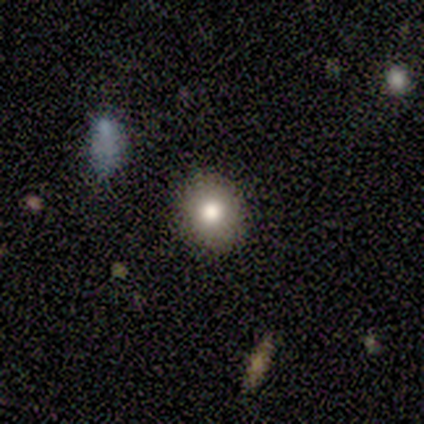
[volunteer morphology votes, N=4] A smooth galaxy with no disk features (50%, tied with star or artifact) that is round (100%). Merging: none (100%).